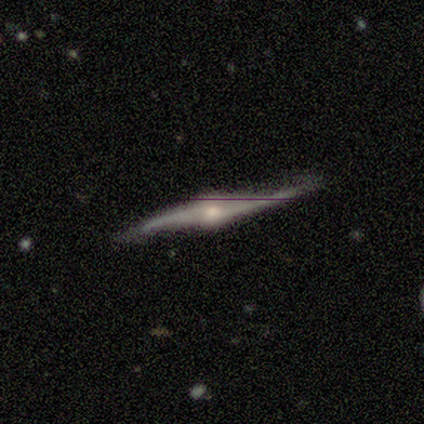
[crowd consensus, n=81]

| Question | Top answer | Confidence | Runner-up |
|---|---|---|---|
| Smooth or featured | featured or disk | 93% | smooth (5%) |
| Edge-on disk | yes | 77% | no (23%) |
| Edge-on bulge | rounded | 97% | boxy (2%) |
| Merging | none | 68% | minor disturbance (29%) |